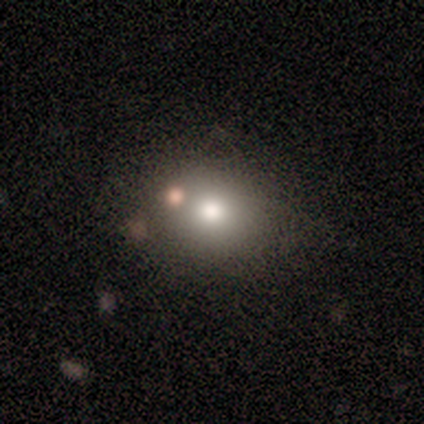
Smooth or featured? smooth (80%)
How rounded? round (62%)
Merging? none (50%)